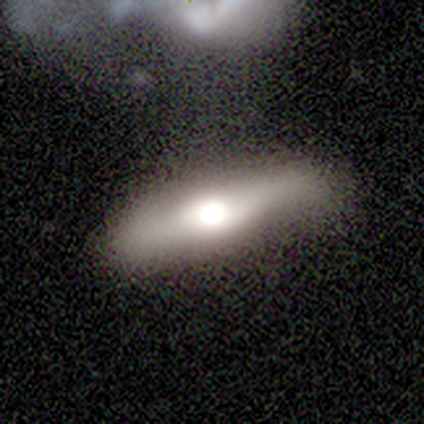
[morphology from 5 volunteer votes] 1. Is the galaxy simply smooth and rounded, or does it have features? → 40% featured or disk (tied), 40% star or artifact (tied), 20% smooth.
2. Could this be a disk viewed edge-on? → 50% yes (tied), 50% no (tied).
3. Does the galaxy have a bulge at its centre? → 100% rounded, 0% boxy, 0% none.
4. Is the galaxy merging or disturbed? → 67% none, 33% merger, 0% minor disturbance, 0% major disturbance.